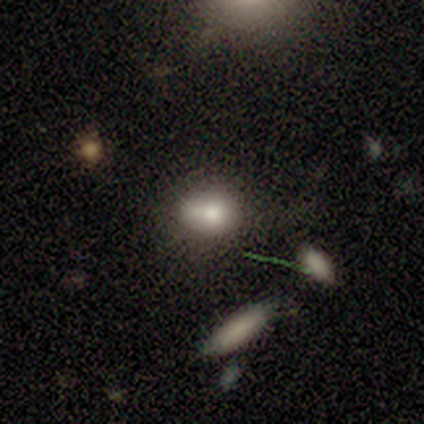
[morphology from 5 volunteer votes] Smooth or featured? smooth (80%)
How rounded? in between (100%)
Merging? minor disturbance (75%)